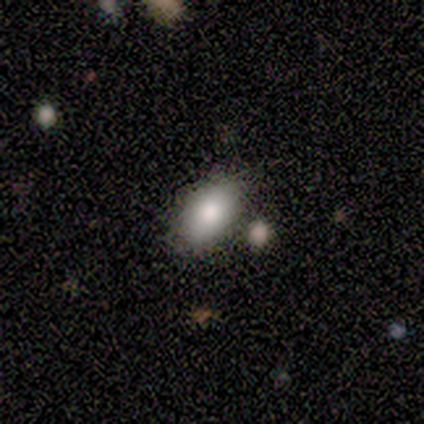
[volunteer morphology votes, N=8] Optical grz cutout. It shows a smooth galaxy with no disk features (62%) that is in between round and cigar-shaped (80%). Merging: none (100%).